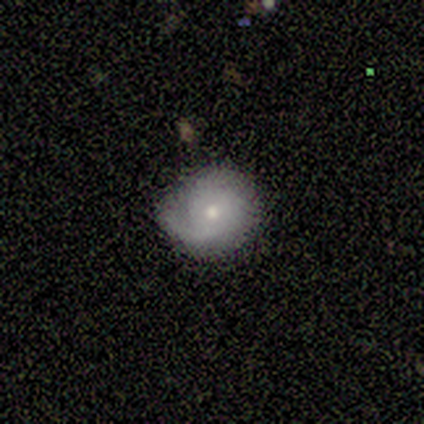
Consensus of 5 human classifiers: Smooth or featured?
  - smooth: 60% *
  - featured or disk: 40%
  - star or artifact: 0%
How rounded?
  - round: 100% *
  - in between: 0%
  - cigar-shaped: 0%
Merging?
  - none: 40% * (tied)
  - minor disturbance: 40% * (tied)
  - major disturbance: 20%
  - merger: 0%